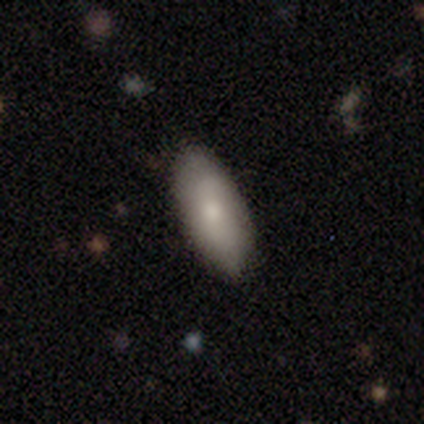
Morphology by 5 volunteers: featured or disk 60%, smooth 40%, star or artifact 0%. Down the decision tree: edge-on disk — no (100%); bar — no (67%); spiral arms — no (67%); bulge size — moderate (67%); merging — none (100%).